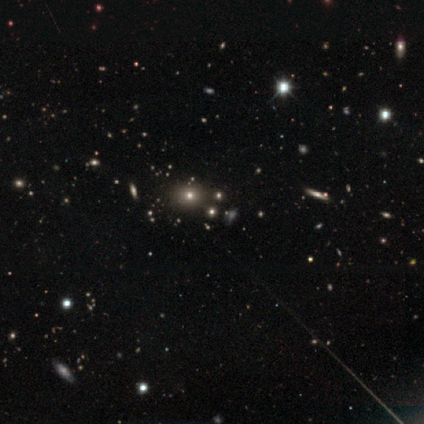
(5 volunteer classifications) Q: Smooth or featured?
A: star or artifact (60%); runner-up: smooth (40%)